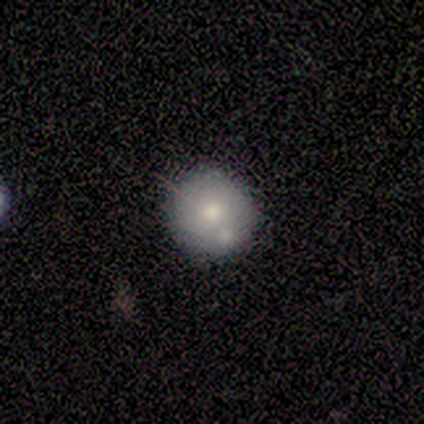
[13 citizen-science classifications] Smooth or featured: smooth — 69% (featured or disk — 23%)
How rounded: round — 89% (in between — 11%)
Merging: none — 83% (minor disturbance — 8%)